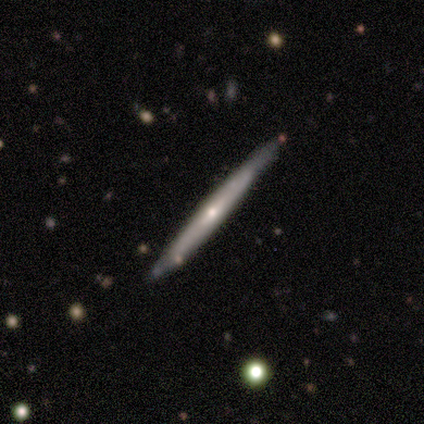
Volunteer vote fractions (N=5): This appears to be a featured or disk galaxy (60%) viewed edge-on (100%) with no central bulge (67%). Merging: none (80%).